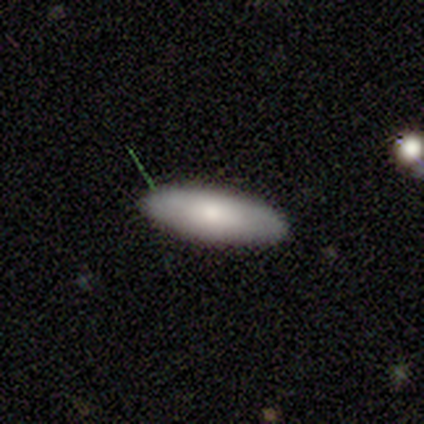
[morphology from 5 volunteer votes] smooth-or-featured: smooth: 80% | featured or disk: 20% | star or artifact: 0%
  how-rounded: in between: 50% (tied) | cigar-shaped: 50% (tied) | round: 0%
  merging: none: 100% | minor disturbance: 0% | major disturbance: 0% | merger: 0%